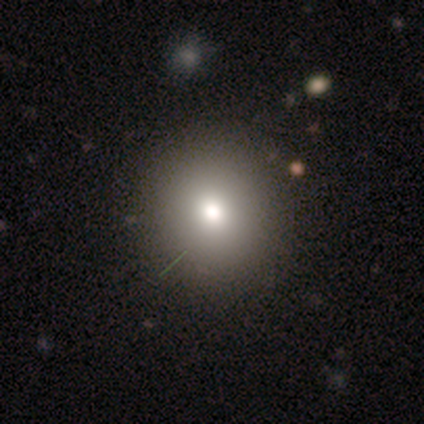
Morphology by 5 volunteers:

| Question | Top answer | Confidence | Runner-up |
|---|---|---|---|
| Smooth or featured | smooth | 40% | tied: star or artifact (40%) |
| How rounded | round | 50% | tied: in between (50%) |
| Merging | none | 100% | — |